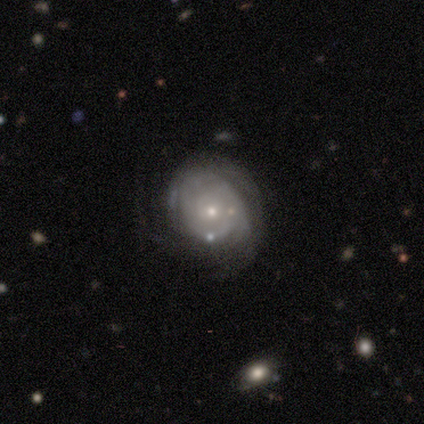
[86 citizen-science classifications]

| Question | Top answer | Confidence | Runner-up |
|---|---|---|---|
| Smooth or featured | featured or disk | 80% | smooth (16%) |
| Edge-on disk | no | 99% | yes (1%) |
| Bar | no | 81% | weak (13%) |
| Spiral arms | yes | 84% | no (16%) |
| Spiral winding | tight | 70% | medium (19%) |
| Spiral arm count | can't tell | 60% | 2 (16%) |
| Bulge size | small | 63% | moderate (29%) |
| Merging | none | 58% | minor disturbance (23%) |